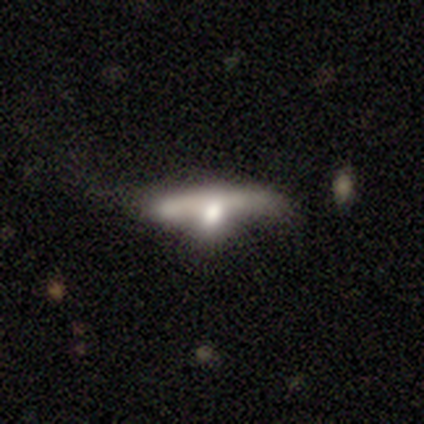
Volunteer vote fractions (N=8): This is likely a featured or disk galaxy (62%). It is likely viewed edge-on (60%). Edge-on bulge: clearly rounded (100%). Merging: marginally none (38%).